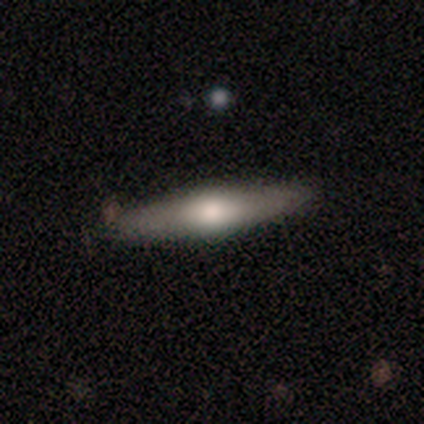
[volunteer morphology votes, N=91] Smooth or featured? 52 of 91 (57%) said smooth. How rounded? 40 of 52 (77%) said cigar-shaped. Merging? 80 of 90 (89%) said none.